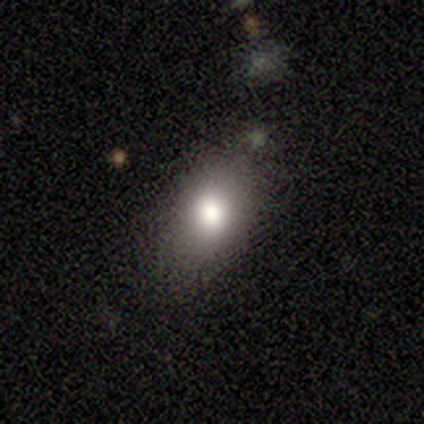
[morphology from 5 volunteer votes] Overall: smooth (100%). How rounded: in between (80%). Merging: none (80%).